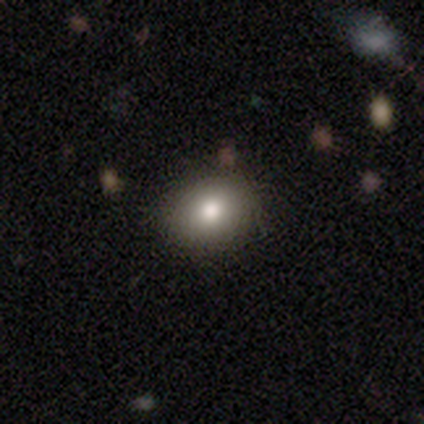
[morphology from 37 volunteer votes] A smooth galaxy with no disk features (70%) that is round (65%). Merging: none (85%).